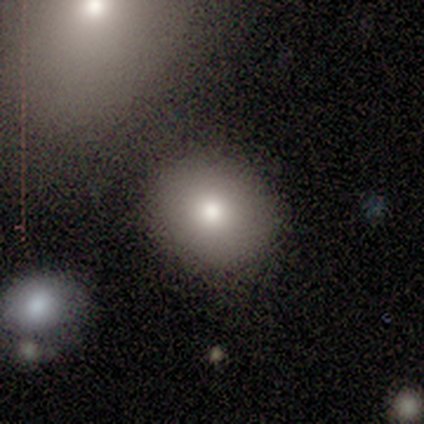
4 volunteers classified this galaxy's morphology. Smooth or featured? 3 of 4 (75%) said smooth. How rounded? 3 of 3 (100%) said round. Merging? 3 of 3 (100%) said none.